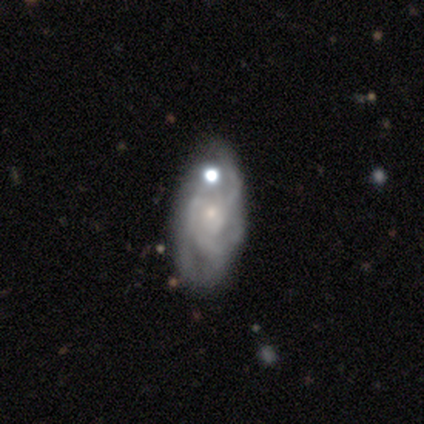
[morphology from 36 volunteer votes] This is likely a featured or disk galaxy (78%). It is clearly not viewed edge-on (100%). Bar: likely no (79%). Spiral arm pattern: clearly yes (82%). Spiral arm count: marginally can't tell (43%). Spiral winding: possibly medium (57%). Central bulge: likely small (71%). Merging: marginally none (44%).